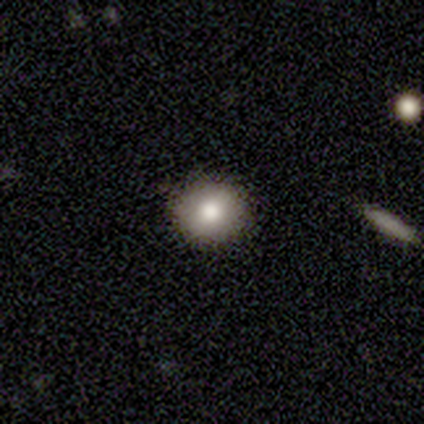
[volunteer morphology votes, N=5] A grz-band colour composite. It shows a smooth galaxy with no disk features (100%) that is round (100%). Merging: none (100%).